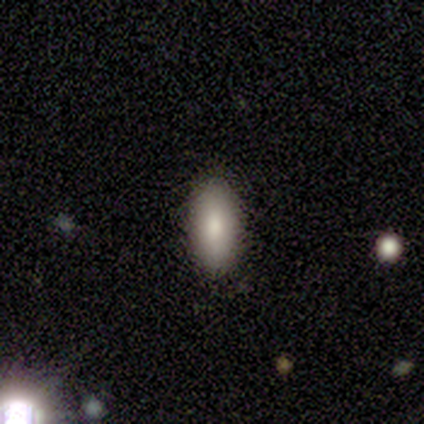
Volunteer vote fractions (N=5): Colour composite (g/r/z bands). It shows a smooth galaxy with no disk features (100%) that is cigar-shaped (60%). Merging: none (80%).